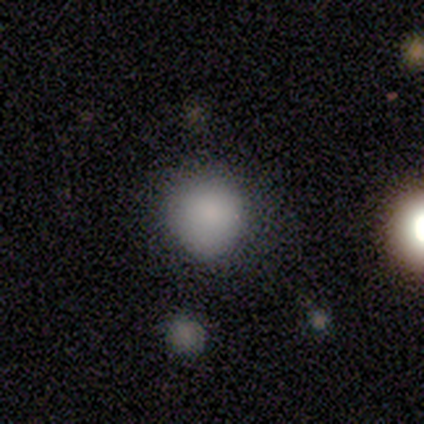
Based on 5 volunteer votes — smooth 100%, featured or disk 0%, star or artifact 0%. Down the decision tree: how rounded — round (100%); merging — none (100%).